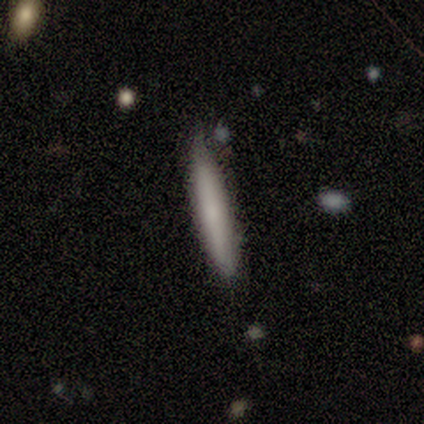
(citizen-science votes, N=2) smooth 100%, featured or disk 0%, star or artifact 0%. Down the decision tree: how rounded — cigar-shaped (100%); merging — none (50%, tied with minor disturbance).